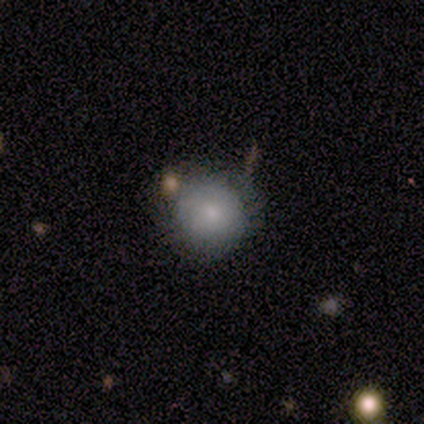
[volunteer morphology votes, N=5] smooth_or_featured: smooth (p=0.60) [alt: featured or disk p=0.20]
how_rounded: round (p=1.00)
merging: none (p=0.75) [alt: minor disturbance p=0.25]